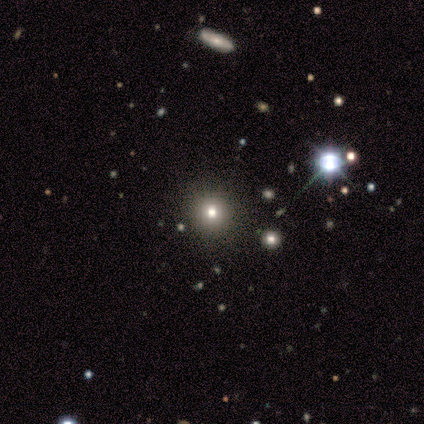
Q: Smooth or featured?
A: smooth (70%); runner-up: star or artifact (30%)
Q: How rounded?
A: round (100%)
Q: Merging?
A: none (100%)